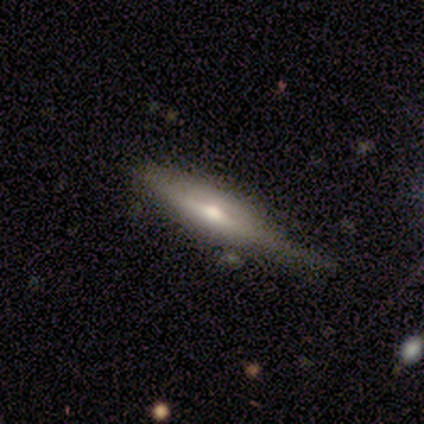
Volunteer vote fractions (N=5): Q: Smooth or featured?
A: featured or disk (80%); runner-up: smooth (20%)
Q: Edge-on disk?
A: yes (100%)
Q: Edge-on bulge?
A: boxy (50%); runner-up: none (25%)
Q: Merging?
A: none (100%)